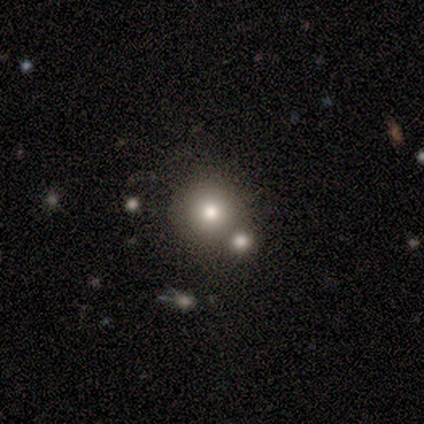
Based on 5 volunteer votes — A smooth galaxy with no disk features (80%) that is round (100%).

Vote fractions:
- Smooth or featured? smooth: 80% / star or artifact: 20% / featured or disk: 0%
- How rounded? round: 100% / in between: 0% / cigar-shaped: 0%
- Merging? none: 25% (tied) / minor disturbance: 25% (tied) / major disturbance: 25% (tied) / merger: 25% (tied)